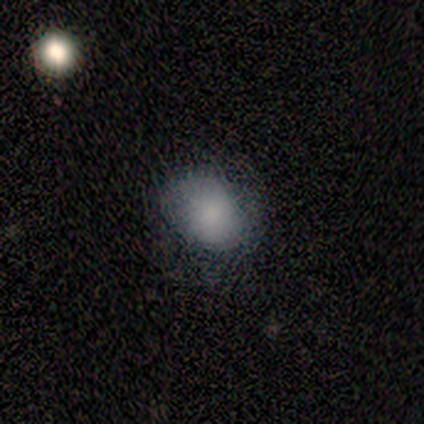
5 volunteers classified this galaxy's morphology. Q: Smooth or featured?
A: star or artifact (60%); runner-up: smooth (20%)